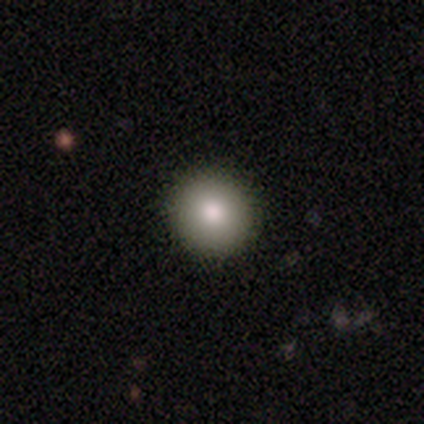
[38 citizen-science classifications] Morphology: type=smooth (82%); roundness=round (94%); merging=none (91%).